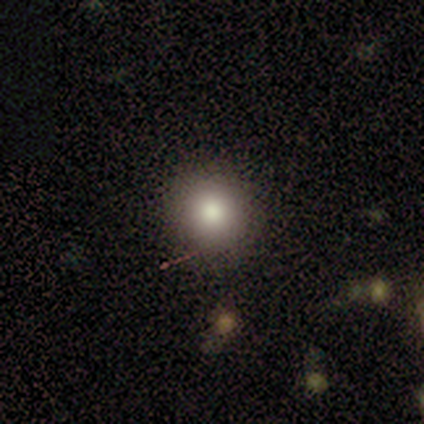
Smooth or featured?
  - smooth: 100% *
  - featured or disk: 0%
  - star or artifact: 0%
How rounded?
  - round: 100% *
  - in between: 0%
  - cigar-shaped: 0%
Merging?
  - none: 100% *
  - minor disturbance: 0%
  - major disturbance: 0%
  - merger: 0%